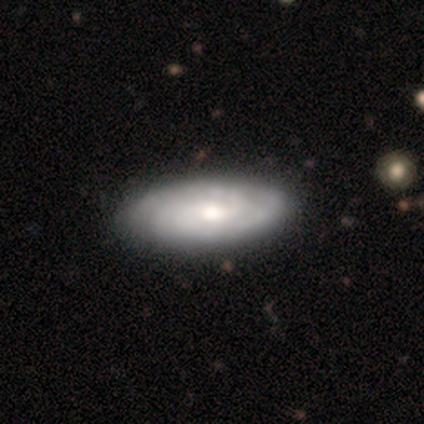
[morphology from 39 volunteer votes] type=featured or disk (79%); edge-on=no (94%); bar=no (62%); spiral arms=yes (90%); winding=tight (62%); arm count=2 (54%); bulge=moderate (69%); merging=none (53%).